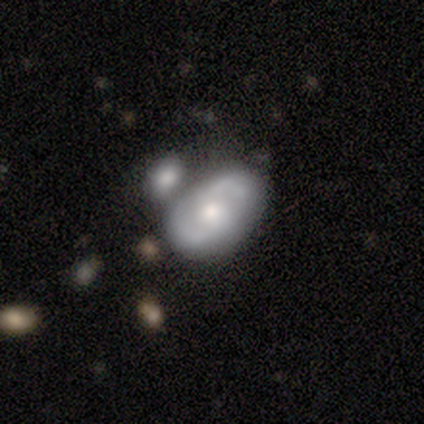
Smooth or featured?
  - featured or disk: 69% *
  - smooth: 29%
  - star or artifact: 2%
Edge-on disk?
  - no: 95% *
  - yes: 5%
Bar?
  - no: 84% *
  - weak: 16%
  - strong: 0%
Spiral arms?
  - yes: 82% *
  - no: 18%
Spiral winding?
  - medium: 52% *
  - tight: 30%
  - loose: 17%
Spiral arm count?
  - 2: 91% *
  - can't tell: 9%
  - 1: 0%
  - 3: 0%
  - 4: 0%
  - more than 4: 0%
Bulge size?
  - moderate: 59% *
  - small: 36%
  - large: 5%
  - dominant: 0%
  - none: 0%
Merging?
  - merger: 39% *
  - none: 37%
  - minor disturbance: 19%
  - major disturbance: 5%